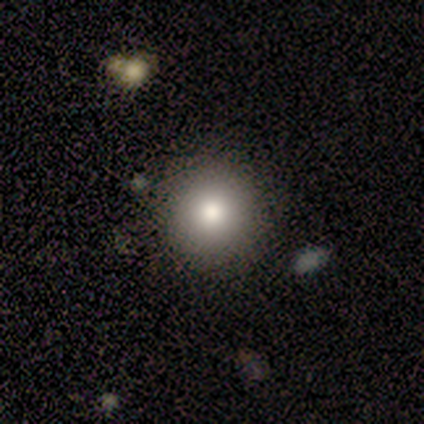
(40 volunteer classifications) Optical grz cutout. It shows a smooth galaxy with no disk features (80%) that is round (100%). Merging: none (89%).